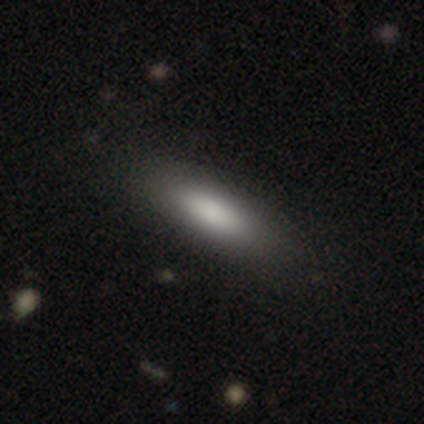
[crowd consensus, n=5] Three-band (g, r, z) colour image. It shows a smooth galaxy with no disk features (80%) that is in between round and cigar-shaped (75%). Merging: none (100%).